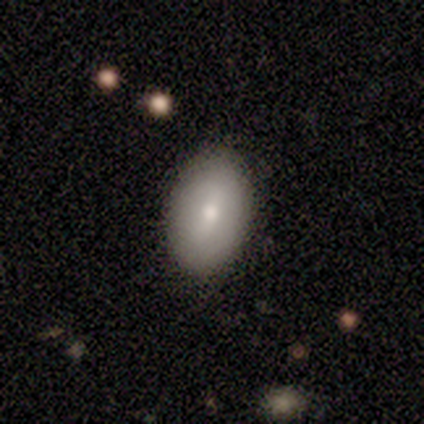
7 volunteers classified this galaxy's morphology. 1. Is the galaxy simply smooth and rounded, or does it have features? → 71% smooth, 29% featured or disk, 0% star or artifact.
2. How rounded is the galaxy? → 100% in between, 0% round, 0% cigar-shaped.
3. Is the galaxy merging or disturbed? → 100% none, 0% minor disturbance, 0% major disturbance, 0% merger.